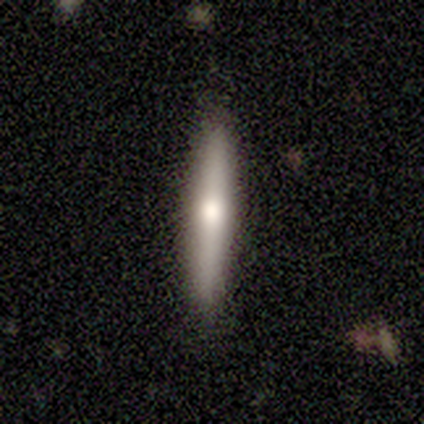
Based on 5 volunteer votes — Overall: featured or disk (60%; smooth 40%). Edge-on disk: yes (100%). Edge-on bulge: rounded (67%; boxy 33%). Merging: none (80%).